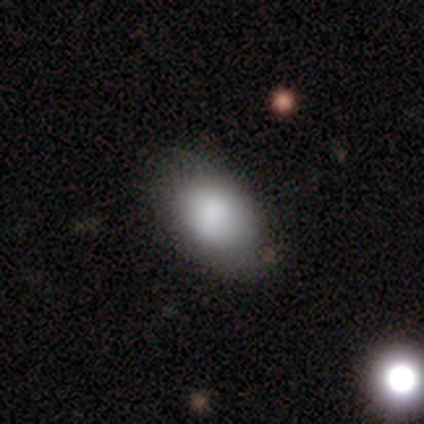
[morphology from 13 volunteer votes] Smooth or featured: smooth — 85% (featured or disk — 15%)
How rounded: in between — 100%
Merging: none — 54% (minor disturbance — 38%)